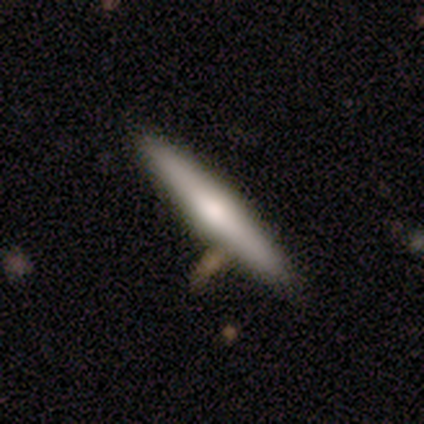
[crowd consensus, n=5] Volunteers were most divided on "smooth or featured": featured or disk: 60%, smooth: 40%, star or artifact: 0%. More confident: edge-on disk — yes (100%); merging — none (100%); edge-on bulge — rounded (67%).